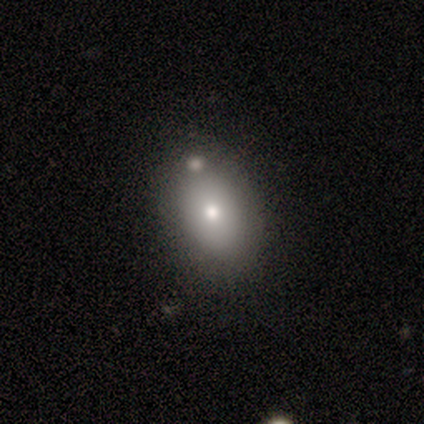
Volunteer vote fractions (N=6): Q: Smooth or featured?
A: smooth (83%); runner-up: featured or disk (17%)
Q: How rounded?
A: in between (100%)
Q: Merging?
A: none (67%); runner-up: minor disturbance (17%)